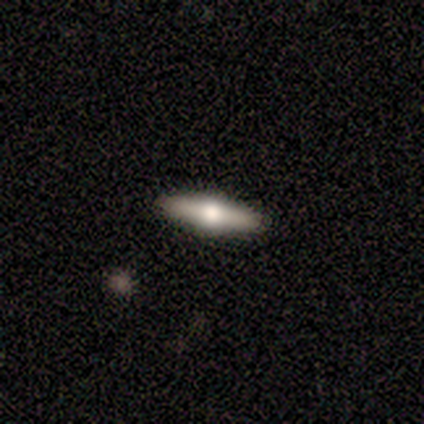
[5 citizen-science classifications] Volunteers were most divided on "smooth or featured": featured or disk: 80%, smooth: 20%, star or artifact: 0%. More confident: edge-on disk — yes (100%); edge-on bulge — rounded (100%); merging — none (80%).